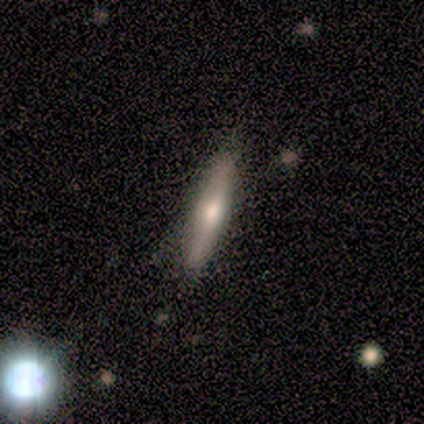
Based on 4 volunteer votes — This appears to be a smooth galaxy with no disk features (75%) that is cigar-shaped (100%). Merging: none (100%).